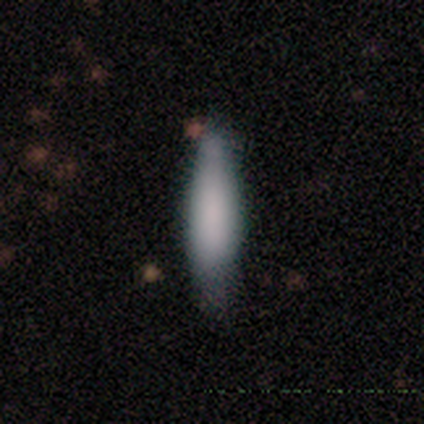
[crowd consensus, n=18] A smooth galaxy with no disk features (89%) that is cigar-shaped (56%). Merging: none (65%).